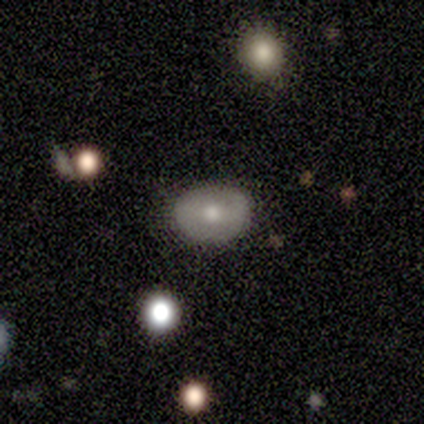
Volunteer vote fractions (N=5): Smooth or featured? featured or disk (60%)
Edge-on disk? no (100%)
Bar? strong (33%, tied with weak and no)
Spiral arms? no (67%)
Bulge size? moderate (100%)
Merging? none (100%)